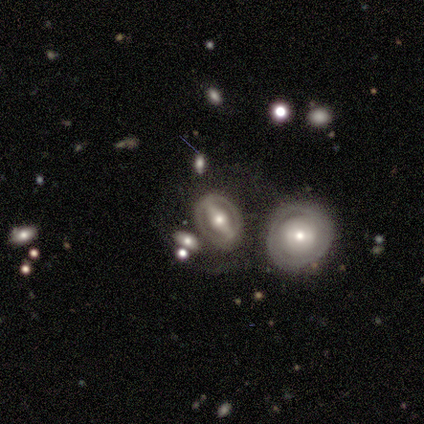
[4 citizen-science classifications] featured or disk 100%, smooth 0%, star or artifact 0%. Down the decision tree: edge-on disk — no (100%); bar — strong (75%); spiral arms — yes (75%); spiral arm count — 2 (67%); spiral winding — medium (67%); bulge size — moderate (75%); merging — none (75%).